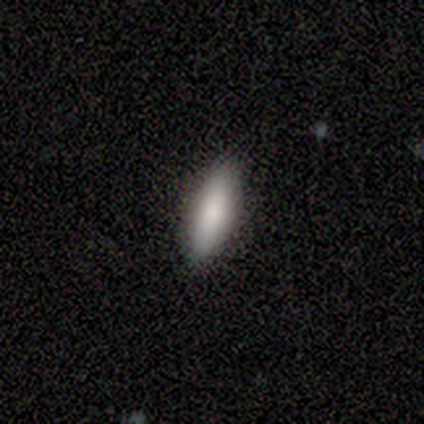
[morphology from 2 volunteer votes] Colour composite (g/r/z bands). It shows a smooth galaxy with no disk features (100%) that is in between round and cigar-shaped (100%). Merging: none (100%).